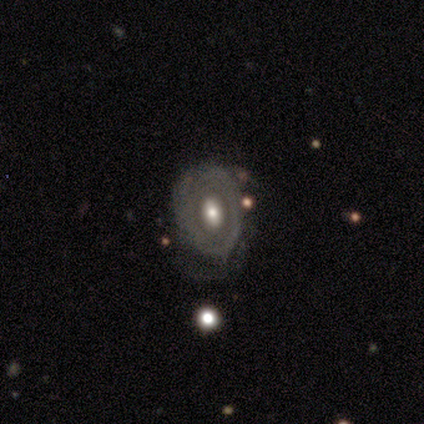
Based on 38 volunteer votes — smooth-or-featured: featured or disk: 71% | smooth: 24% | star or artifact: 5%
  disk-edge-on: no: 89% | yes: 11%
    bar: no: 62% | weak: 33% | strong: 4%
    has-spiral-arms: no: 79% | yes: 21%
    bulge-size: moderate: 79% | large: 21% | dominant: 0% | small: 0% | none: 0%
  merging: minor disturbance: 47% | none: 36% | major disturbance: 14% | merger: 3%